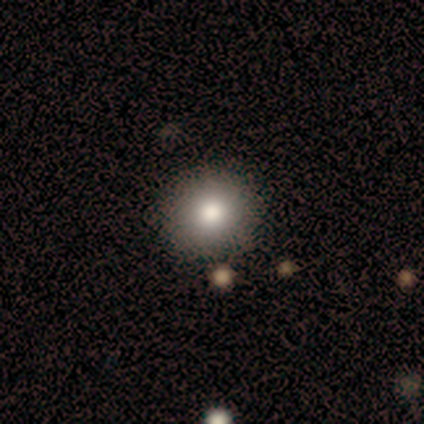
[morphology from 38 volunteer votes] type=smooth (82%); roundness=round (90%); merging=none (82%).